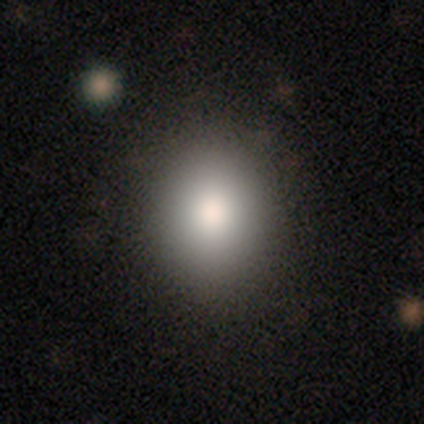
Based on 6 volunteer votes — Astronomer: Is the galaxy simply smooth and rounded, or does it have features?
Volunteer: smooth — 83%.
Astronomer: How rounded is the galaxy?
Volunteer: in between — 60% (runner-up: round, 40%).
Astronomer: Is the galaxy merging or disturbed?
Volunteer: none — 67%.